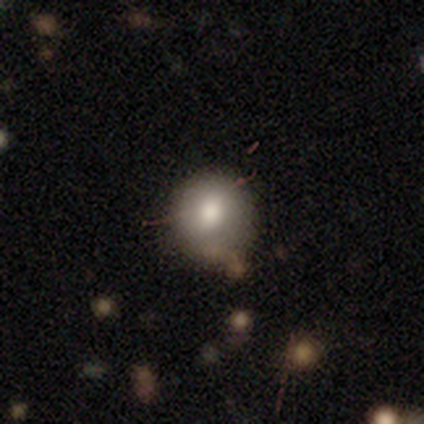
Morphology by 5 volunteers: A smooth galaxy with no disk features (60%) that is in between round and cigar-shaped (67%).

Vote fractions:
- Smooth or featured? smooth: 60% / star or artifact: 40% / featured or disk: 0%
- How rounded? in between: 67% / round: 33% / cigar-shaped: 0%
- Merging? none: 100% / minor disturbance: 0% / major disturbance: 0% / merger: 0%